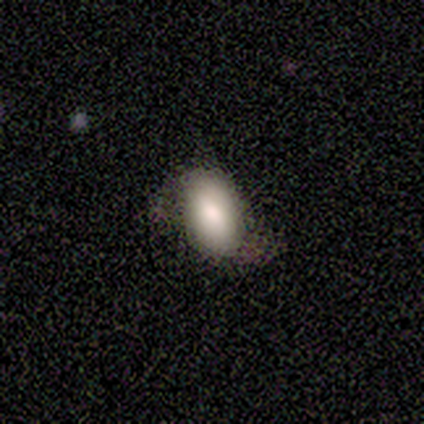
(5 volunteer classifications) Smooth or featured: smooth — 60% (star or artifact — 40%)
How rounded: in between — 100%
Merging: none — 33% (tied with minor disturbance — 33%; major disturbance — 33%)